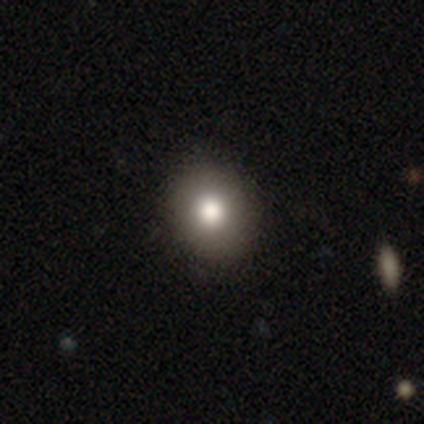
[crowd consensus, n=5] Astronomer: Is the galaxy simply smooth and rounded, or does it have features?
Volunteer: smooth — 80%.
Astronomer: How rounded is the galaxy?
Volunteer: round — 75%.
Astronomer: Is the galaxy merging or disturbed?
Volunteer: none — 80%.